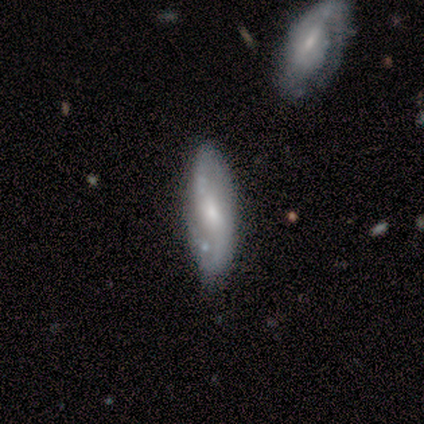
Smooth or featured? 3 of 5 (60%) said featured or disk. Edge-on disk? 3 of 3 (100%) said no. Bar? 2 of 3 (67%) said weak. Spiral arms? 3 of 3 (100%) said yes. Spiral winding? 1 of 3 (33%, tied with medium and loose) said tight. Spiral arm count? 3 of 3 (100%) said 2. Bulge size? 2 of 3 (67%) said moderate. Merging? 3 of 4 (75%) said none.